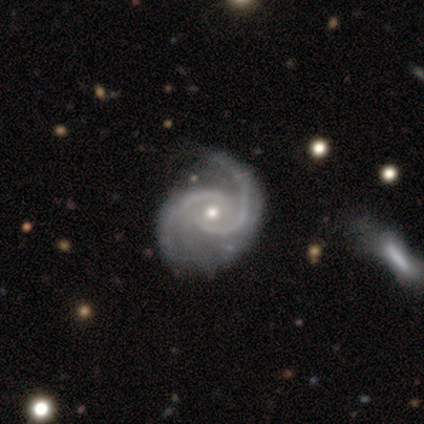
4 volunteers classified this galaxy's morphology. This appears to be a featured or disk galaxy (100%) with no bar (75%), 2 (100%) medium (75%) spiral arms (100%) and a moderate central bulge (75%). Merging: none (50%, tied with minor disturbance).